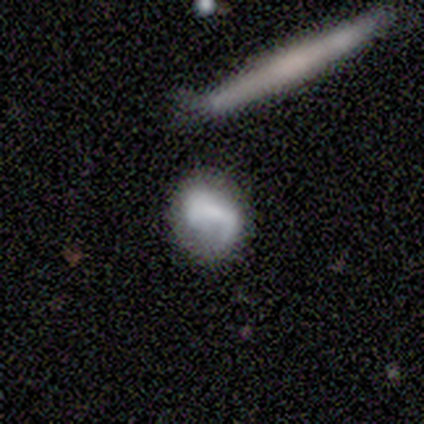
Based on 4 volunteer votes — Q: Smooth or featured?
A: featured or disk (75%); runner-up: smooth (25%)
Q: Edge-on disk?
A: no (100%)
Q: Bar?
A: no (67%); runner-up: weak (33%)
Q: Spiral arms?
A: yes (67%); runner-up: no (33%)
Q: Spiral winding?
A: medium (100%)
Q: Spiral arm count?
A: 1 (100%)
Q: Bulge size?
A: small (67%); runner-up: none (33%)
Q: Merging?
A: none (100%)